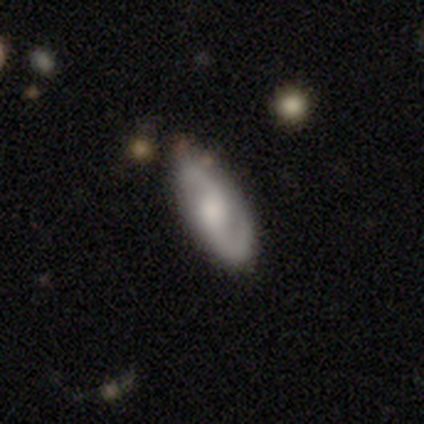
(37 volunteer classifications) Smooth or featured? featured or disk (81%)
Edge-on disk? no (97%)
Bar? no (62%)
Spiral arms? yes (97%)
Spiral winding? medium (50%)
Spiral arm count? 2 (96%)
Bulge size? moderate (41%)
Merging? none (56%)